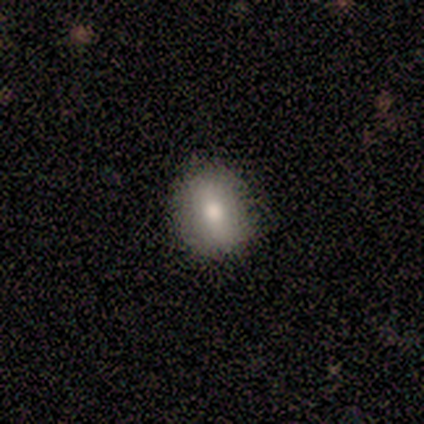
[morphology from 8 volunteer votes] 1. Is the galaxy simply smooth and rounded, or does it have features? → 75% smooth, 25% featured or disk, 0% star or artifact.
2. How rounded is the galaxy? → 50% round (tied), 50% in between (tied), 0% cigar-shaped.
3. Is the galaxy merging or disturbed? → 88% none, 12% minor disturbance, 0% major disturbance, 0% merger.